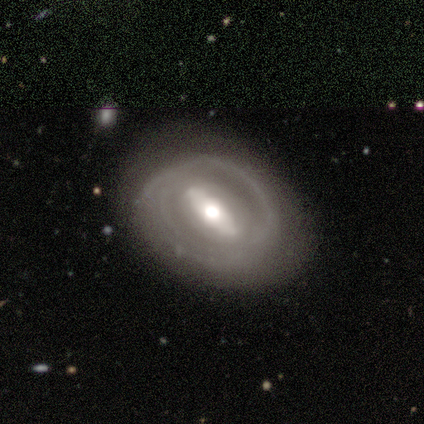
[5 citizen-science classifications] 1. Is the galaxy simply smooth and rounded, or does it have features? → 80% featured or disk, 20% smooth, 0% star or artifact.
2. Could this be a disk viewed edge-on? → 100% no, 0% yes.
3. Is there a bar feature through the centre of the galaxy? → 100% strong, 0% weak, 0% no.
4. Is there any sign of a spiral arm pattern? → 75% yes, 25% no.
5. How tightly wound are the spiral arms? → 100% tight, 0% medium, 0% loose.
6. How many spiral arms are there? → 67% can't tell, 33% 2, 0% 1, 0% 3, 0% 4, 0% more than 4.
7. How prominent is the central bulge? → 75% moderate, 25% small, 0% dominant, 0% large, 0% none.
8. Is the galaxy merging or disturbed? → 100% none, 0% minor disturbance, 0% major disturbance, 0% merger.